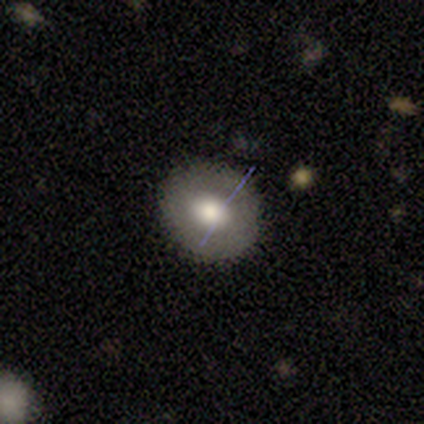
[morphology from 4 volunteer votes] Smooth or featured: smooth — 75% (featured or disk — 25%)
How rounded: round — 67% (in between — 33%)
Merging: none — 100%